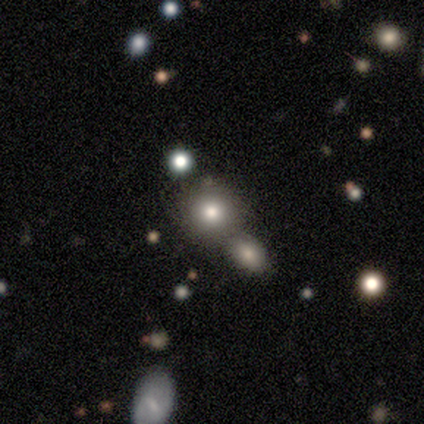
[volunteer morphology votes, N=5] Smooth or featured? star or artifact (60%)